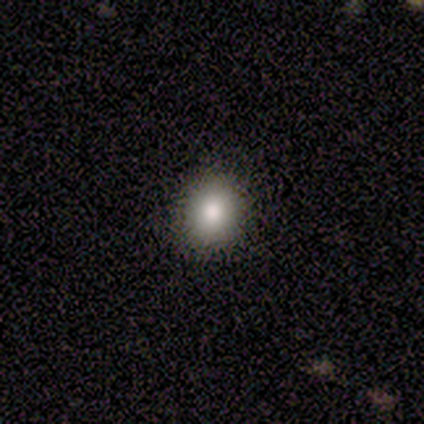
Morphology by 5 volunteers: Smooth or featured: smooth — 60% (featured or disk — 20%)
How rounded: in between — 67% (round — 33%)
Merging: none — 75% (minor disturbance — 25%)